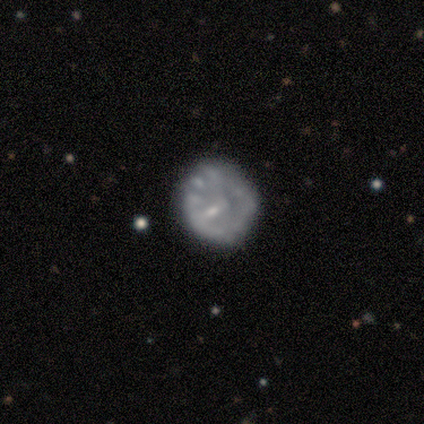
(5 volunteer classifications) A featured or disk galaxy (60%) with no bar (100%), no spiral arms (100%) and a moderate central bulge (33%, tied with small and none).

Vote fractions:
- Smooth or featured? featured or disk: 60% / smooth: 20% / star or artifact: 20%
- Edge-on disk? no: 100% / yes: 0%
- Bar? no: 100% / strong: 0% / weak: 0%
- Spiral arms? no: 100% / yes: 0%
- Bulge size? moderate: 33% (tied) / small: 33% (tied) / none: 33% (tied) / dominant: 0% / large: 0%
- Merging? none: 100% / minor disturbance: 0% / major disturbance: 0% / merger: 0%